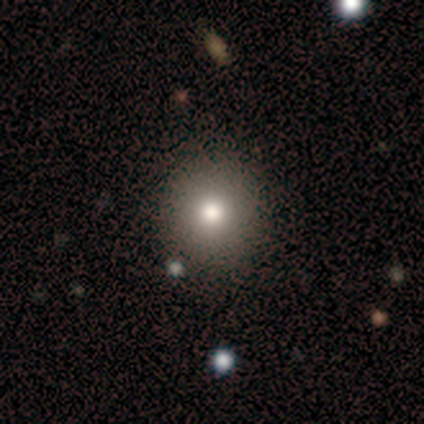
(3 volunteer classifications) This is likely a smooth galaxy (67%). How rounded: clearly round (100%). Merging: clearly none (100%).